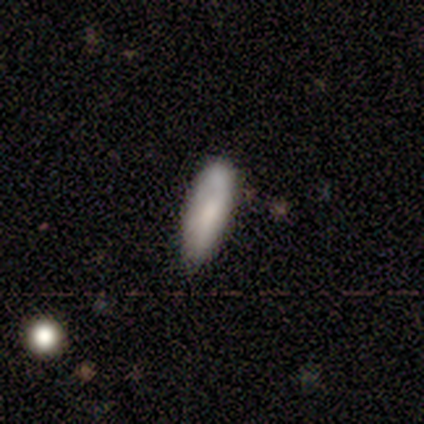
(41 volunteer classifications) Q: Smooth or featured?
A: smooth (73%); runner-up: featured or disk (24%)
Q: How rounded?
A: in between (67%); runner-up: cigar-shaped (33%)
Q: Merging?
A: none (52%); runner-up: minor disturbance (32%)